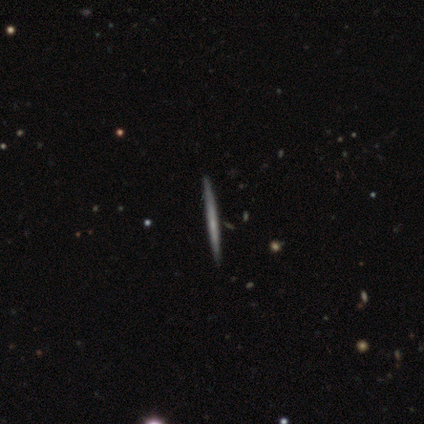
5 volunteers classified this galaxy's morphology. Volunteers were most divided on "smooth or featured": smooth: 80%, featured or disk: 20%, star or artifact: 0%. More confident: how rounded — cigar-shaped (100%); merging — none (100%).